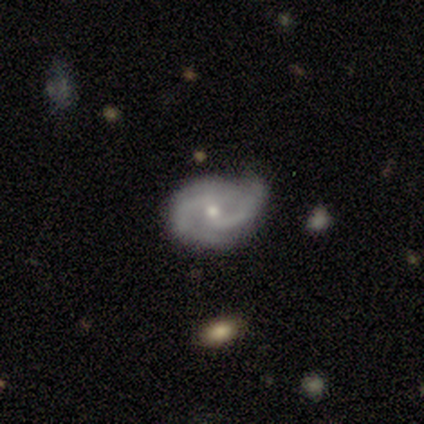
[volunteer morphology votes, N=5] Smooth or featured?
  - featured or disk: 100% *
  - smooth: 0%
  - star or artifact: 0%
Edge-on disk?
  - no: 100% *
  - yes: 0%
Bar?
  - no: 100% *
  - strong: 0%
  - weak: 0%
Spiral arms?
  - yes: 100% *
  - no: 0%
Spiral winding?
  - medium: 80% *
  - loose: 20%
  - tight: 0%
Spiral arm count?
  - 2: 100% *
  - 1: 0%
  - 3: 0%
  - 4: 0%
  - more than 4: 0%
  - can't tell: 0%
Bulge size?
  - small: 100% *
  - dominant: 0%
  - large: 0%
  - moderate: 0%
  - none: 0%
Merging?
  - none: 80% *
  - minor disturbance: 20%
  - major disturbance: 0%
  - merger: 0%